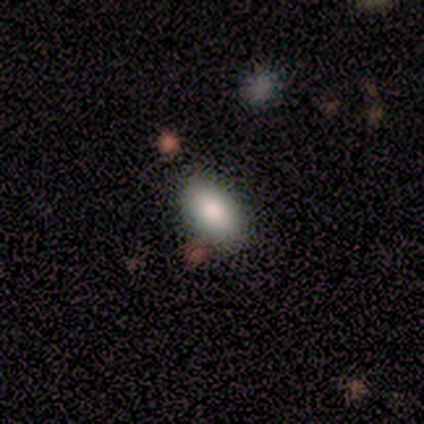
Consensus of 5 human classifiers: Smooth or featured? smooth (100%)
How rounded? in between (100%)
Merging? none (60%)